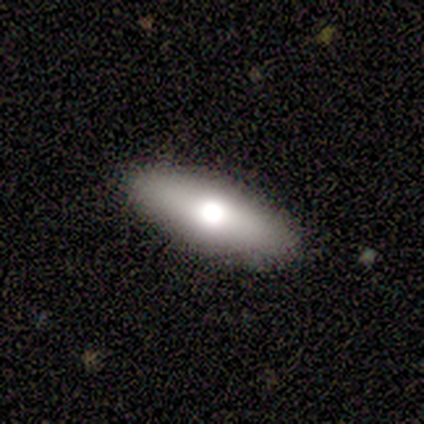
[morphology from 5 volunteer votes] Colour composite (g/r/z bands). It shows a featured or disk galaxy (60%) viewed edge-on (100%) with a rounded central bulge (100%). Merging: none (100%).